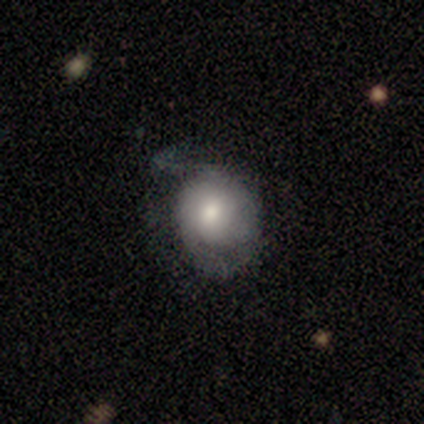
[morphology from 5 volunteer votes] Smooth or featured: smooth — 80% (featured or disk — 20%)
How rounded: round — 50% (tied with in between — 50%)
Merging: minor disturbance — 60% (none — 20%)